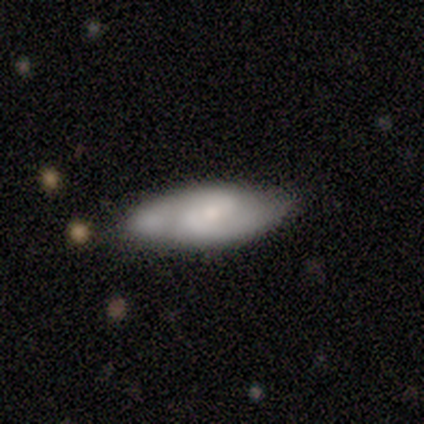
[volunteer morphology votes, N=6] Q: Smooth or featured?
A: smooth (67%); runner-up: featured or disk (33%)
Q: How rounded?
A: in between (100%)
Q: Merging?
A: none (100%)